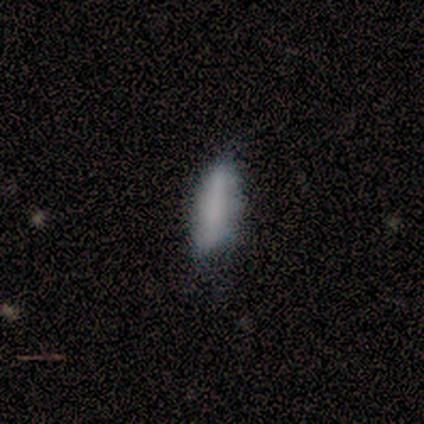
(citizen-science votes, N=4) Smooth or featured? smooth (100%)
How rounded? cigar-shaped (75%)
Merging? none (50%, tied with major disturbance)